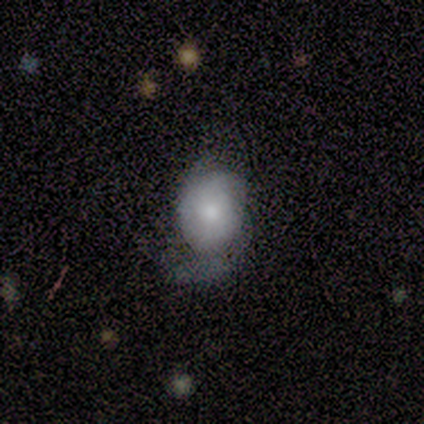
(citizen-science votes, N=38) Smooth or featured? featured or disk (53%)
Edge-on disk? no (100%)
Bar? no (75%)
Spiral arms? yes (75%)
Spiral winding? tight (40%)
Spiral arm count? can't tell (53%)
Bulge size? moderate (65%)
Merging? major disturbance (39%)